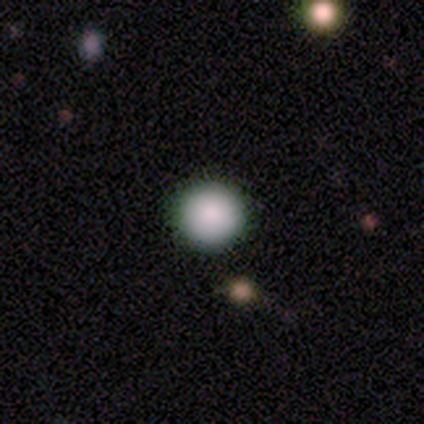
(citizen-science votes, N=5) Q: Smooth or featured?
A: smooth (100%)
Q: How rounded?
A: round (80%); runner-up: in between (20%)
Q: Merging?
A: none (100%)